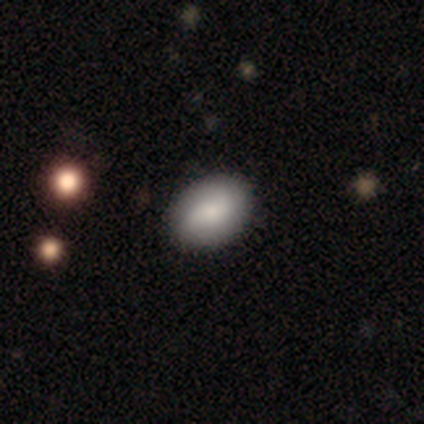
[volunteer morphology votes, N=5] smooth_or_featured: smooth (p=1.00)
how_rounded: in between (p=1.00)
merging: none (p=0.60) [alt: major disturbance p=0.40]